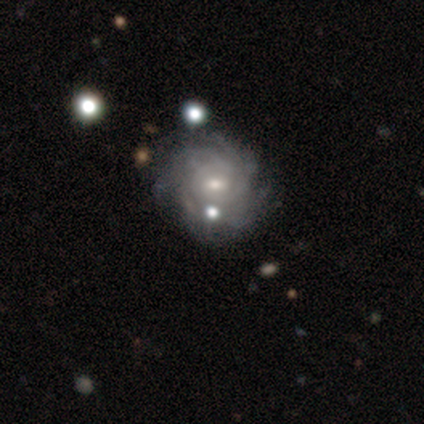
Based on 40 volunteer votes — Smooth or featured? featured or disk (90%)
Edge-on disk? no (100%)
Bar? no (50%)
Spiral arms? yes (94%)
Spiral winding? tight (74%)
Spiral arm count? more than 4 (35%, tied with can't tell)
Bulge size? moderate (53%)
Merging? none (66%)